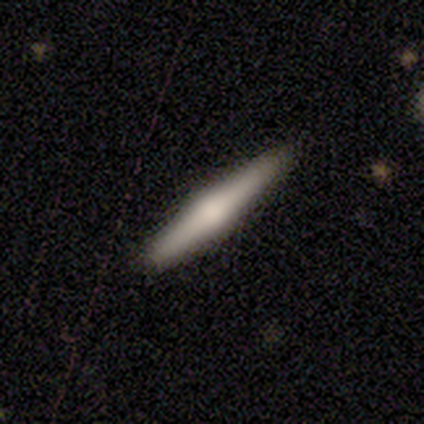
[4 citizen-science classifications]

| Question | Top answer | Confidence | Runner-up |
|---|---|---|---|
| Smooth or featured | featured or disk | 50% | smooth (25%) |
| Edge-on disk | yes | 100% | — |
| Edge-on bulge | rounded | 100% | — |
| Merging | none | 100% | — |